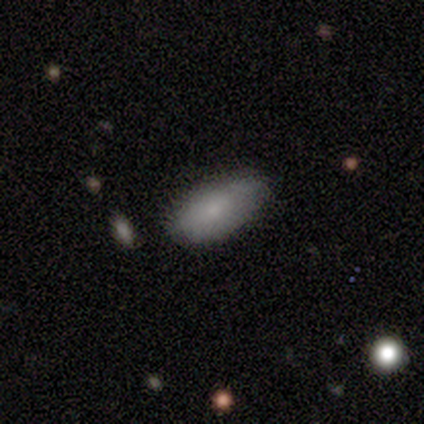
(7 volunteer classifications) A smooth galaxy with no disk features (71%) that is in between round and cigar-shaped (60%).

Vote fractions:
- Smooth or featured? smooth: 71% / featured or disk: 29% / star or artifact: 0%
- How rounded? in between: 60% / cigar-shaped: 40% / round: 0%
- Merging? none: 100% / minor disturbance: 0% / major disturbance: 0% / merger: 0%